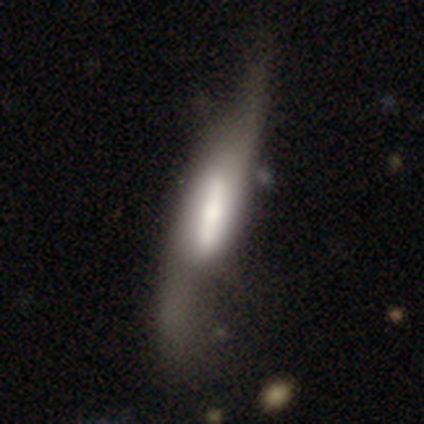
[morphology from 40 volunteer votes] Smooth or featured: featured or disk — 82% (smooth — 15%)
Edge-on disk: yes — 55% (no — 45%)
Edge-on bulge: boxy — 61% (rounded — 28%)
Merging: major disturbance — 38% (minor disturbance — 18%)